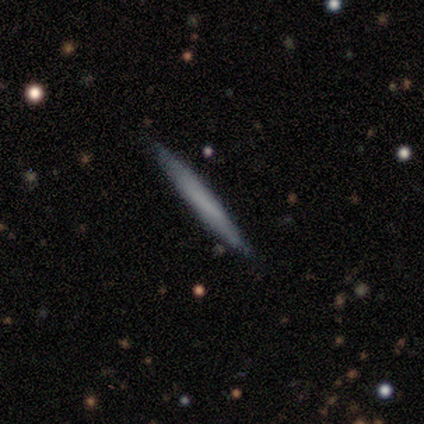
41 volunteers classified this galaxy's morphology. Smooth or featured? smooth (51%)
How rounded? cigar-shaped (100%)
Merging? none (90%)